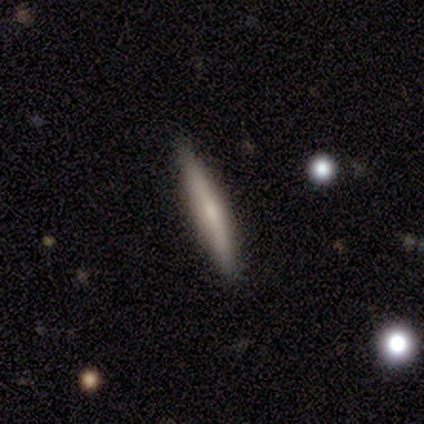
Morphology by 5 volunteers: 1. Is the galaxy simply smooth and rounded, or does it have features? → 100% smooth, 0% featured or disk, 0% star or artifact.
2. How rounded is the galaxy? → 100% cigar-shaped, 0% round, 0% in between.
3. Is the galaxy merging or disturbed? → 100% none, 0% minor disturbance, 0% major disturbance, 0% merger.